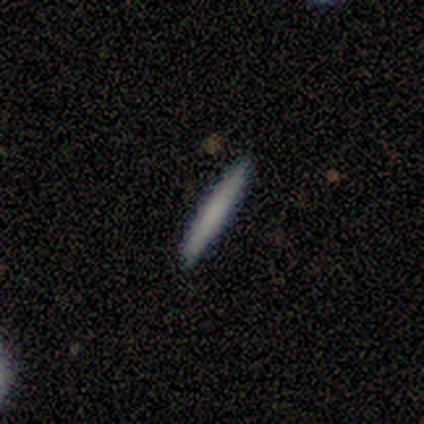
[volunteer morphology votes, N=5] This is clearly a smooth galaxy (80%). How rounded: clearly cigar-shaped (100%). Merging: clearly none (100%).